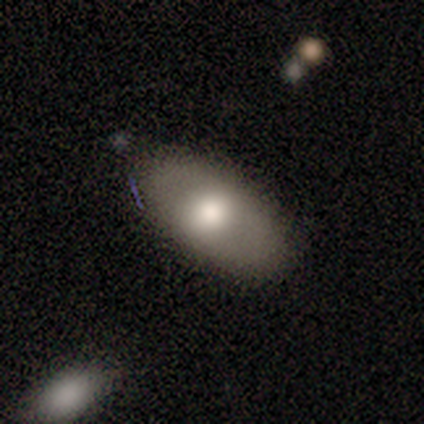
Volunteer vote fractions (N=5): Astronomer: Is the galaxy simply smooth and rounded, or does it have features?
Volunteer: smooth — 80%.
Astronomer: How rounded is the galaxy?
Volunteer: in between — 75%.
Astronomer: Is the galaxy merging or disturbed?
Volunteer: none — 100%.